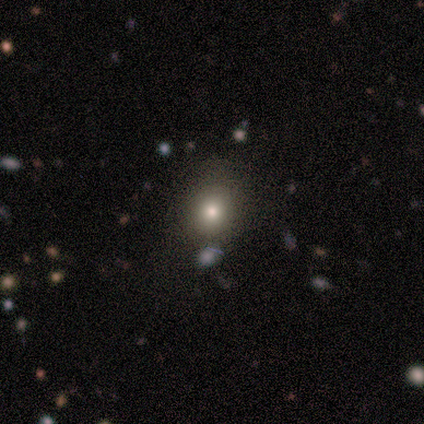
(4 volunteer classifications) Morphology: type=smooth (75%); roundness=round (100%); merging=none (100%).